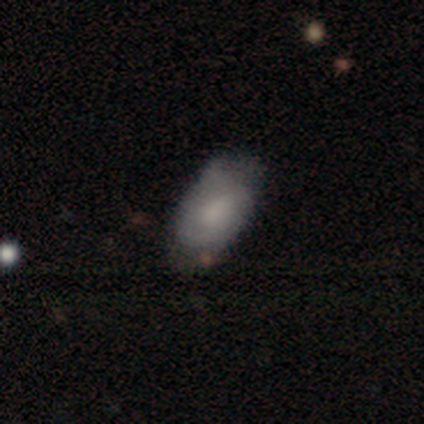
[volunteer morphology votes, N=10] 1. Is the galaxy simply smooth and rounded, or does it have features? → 60% featured or disk, 40% smooth, 0% star or artifact.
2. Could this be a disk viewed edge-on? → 100% no, 0% yes.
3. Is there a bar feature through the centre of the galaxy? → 67% no, 33% weak, 0% strong.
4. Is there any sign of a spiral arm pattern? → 83% yes, 17% no.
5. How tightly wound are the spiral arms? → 100% tight, 0% medium, 0% loose.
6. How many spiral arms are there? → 80% can't tell, 20% 2, 0% 1, 0% 3, 0% 4, 0% more than 4.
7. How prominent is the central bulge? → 50% moderate, 33% none, 17% small, 0% dominant, 0% large.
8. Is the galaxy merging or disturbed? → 80% none, 20% minor disturbance, 0% major disturbance, 0% merger.